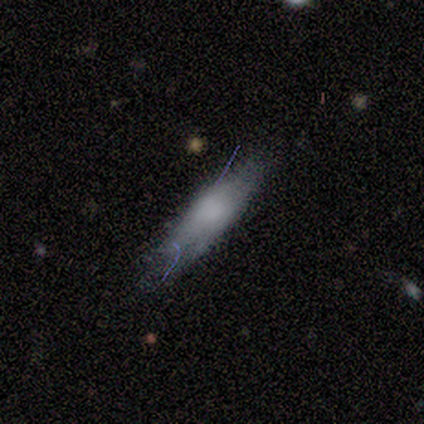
Q: Smooth or featured?
A: smooth (57%); runner-up: featured or disk (43%)
Q: How rounded?
A: in between (50%); tied with: cigar-shaped (50%)
Q: Merging?
A: none (86%); runner-up: minor disturbance (14%)